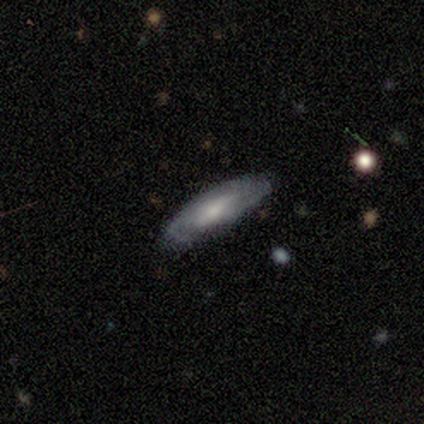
Smooth or featured: smooth — 75% (featured or disk — 25%)
How rounded: cigar-shaped — 100%
Merging: none — 100%